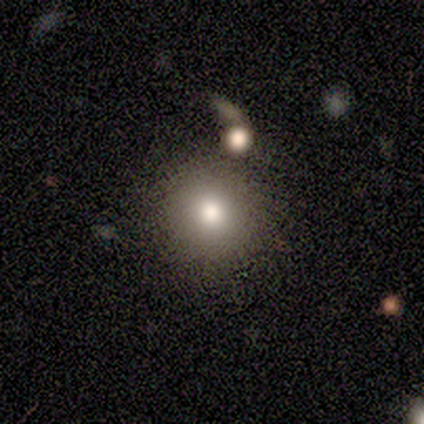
Volunteers were most divided on "smooth or featured": smooth: 80%, featured or disk: 20%, star or artifact: 0%. More confident: how rounded — round (100%); merging — none (80%).